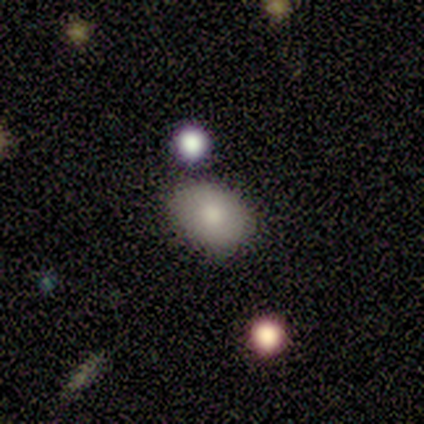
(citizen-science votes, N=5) Smooth or featured?
  - smooth: 100% *
  - featured or disk: 0%
  - star or artifact: 0%
How rounded?
  - round: 60% *
  - in between: 40%
  - cigar-shaped: 0%
Merging?
  - none: 80% *
  - major disturbance: 20%
  - minor disturbance: 0%
  - merger: 0%